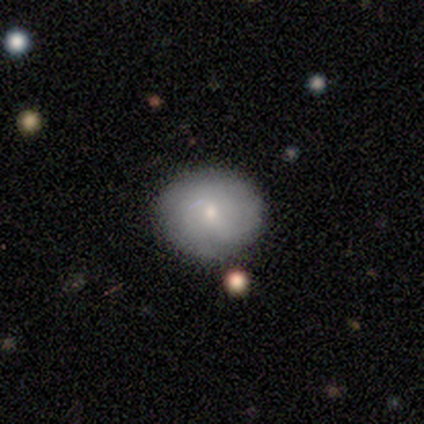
Smooth or featured?
  - featured or disk: 60% *
  - smooth: 40%
  - star or artifact: 0%
Edge-on disk?
  - no: 100% *
  - yes: 0%
Bar?
  - no: 100% *
  - strong: 0%
  - weak: 0%
Spiral arms?
  - yes: 67% *
  - no: 33%
Spiral winding?
  - tight: 100% *
  - medium: 0%
  - loose: 0%
Spiral arm count?
  - 2: 50% * (tied)
  - can't tell: 50% * (tied)
  - 1: 0%
  - 3: 0%
  - 4: 0%
  - more than 4: 0%
Bulge size?
  - small: 100% *
  - dominant: 0%
  - large: 0%
  - moderate: 0%
  - none: 0%
Merging?
  - none: 60% *
  - minor disturbance: 40%
  - major disturbance: 0%
  - merger: 0%